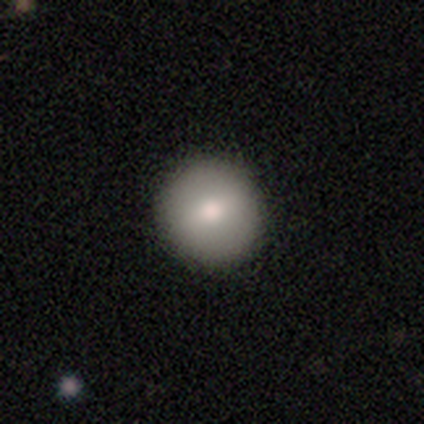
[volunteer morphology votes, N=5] smooth 80%, star or artifact 20%, featured or disk 0%. Down the decision tree: how rounded — round (100%); merging — none (100%).